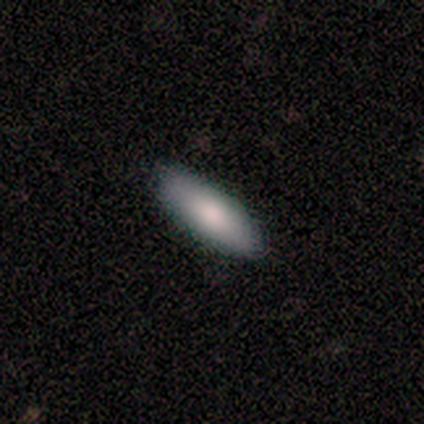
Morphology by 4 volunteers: Volunteers were most divided on "smooth or featured": smooth: 75%, star or artifact: 25%, featured or disk: 0%. More confident: how rounded — in between (100%); merging — none (100%).